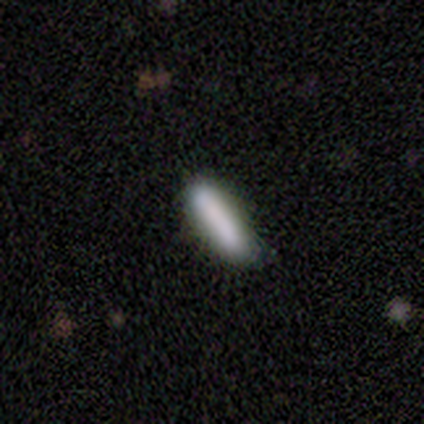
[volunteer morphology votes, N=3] type=smooth (67%); roundness=in between (100%); merging=none (100%).